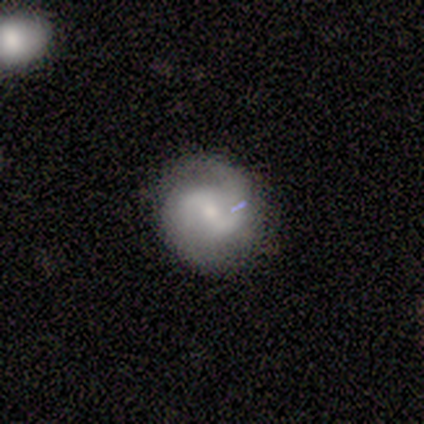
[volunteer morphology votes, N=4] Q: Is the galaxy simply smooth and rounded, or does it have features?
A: featured or disk — 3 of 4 (75%).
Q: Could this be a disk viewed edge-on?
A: no — 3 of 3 (100%).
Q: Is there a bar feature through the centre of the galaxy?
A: no — 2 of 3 (67%).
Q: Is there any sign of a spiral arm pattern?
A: yes — 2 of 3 (67%).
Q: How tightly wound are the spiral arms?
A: medium — 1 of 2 (50%, tied with loose).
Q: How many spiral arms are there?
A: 2 — 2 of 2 (100%).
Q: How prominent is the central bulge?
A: small — 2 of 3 (67%).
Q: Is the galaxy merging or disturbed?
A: none — 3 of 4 (75%).